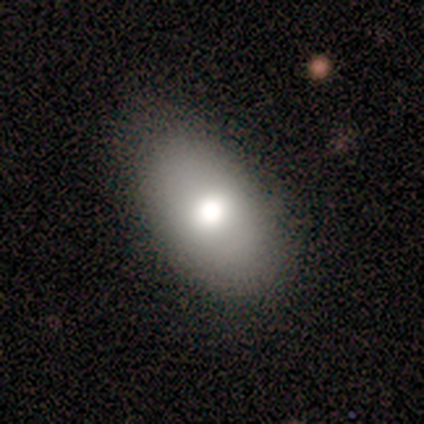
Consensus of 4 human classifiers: smooth 75%, star or artifact 25%, featured or disk 0%. Down the decision tree: how rounded — in between (100%); merging — none (100%).